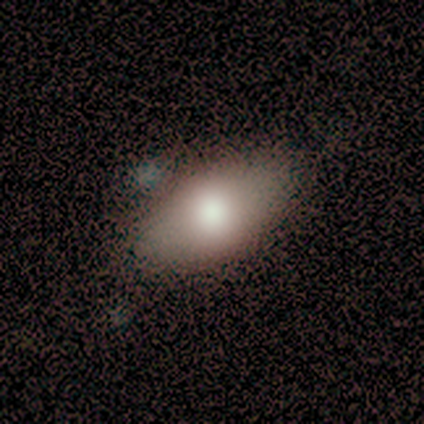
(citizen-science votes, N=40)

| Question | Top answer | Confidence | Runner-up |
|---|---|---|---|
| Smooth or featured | smooth | 75% | featured or disk (18%) |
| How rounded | in between | 87% | round (10%) |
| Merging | none | 78% | minor disturbance (16%) |